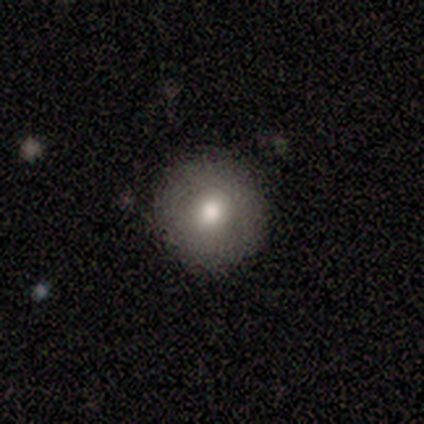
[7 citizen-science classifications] smooth_or_featured: featured or disk (p=0.57) [alt: smooth p=0.43]
disk_edge_on: no (p=1.00)
bar: no (p=1.00)
has_spiral_arms: no (p=1.00)
bulge_size: moderate (p=0.75) [alt: large p=0.25]
merging: none (p=0.86) [alt: minor disturbance p=0.14]